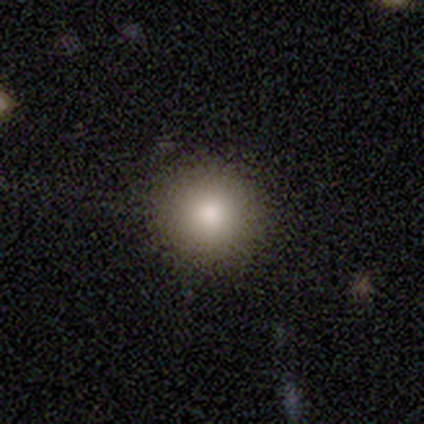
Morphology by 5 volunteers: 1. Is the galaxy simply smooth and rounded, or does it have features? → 60% smooth, 40% featured or disk, 0% star or artifact.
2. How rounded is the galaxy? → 100% round, 0% in between, 0% cigar-shaped.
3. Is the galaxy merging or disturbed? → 80% none, 20% minor disturbance, 0% major disturbance, 0% merger.